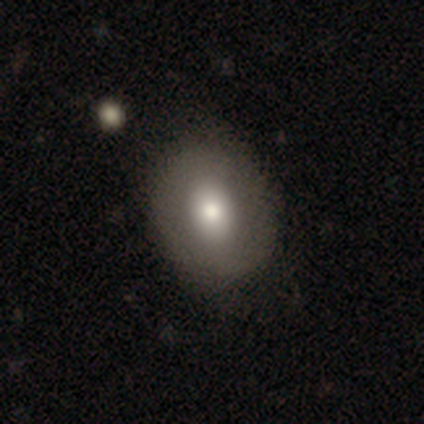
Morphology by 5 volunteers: type=smooth (60%); roundness=in between (67%); merging=none (60%).